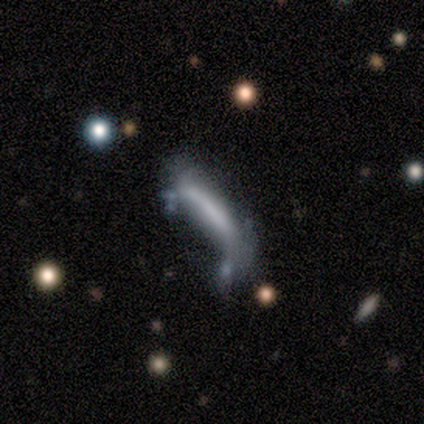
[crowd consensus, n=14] A smooth galaxy with no disk features (50%, tied with featured or disk) that is cigar-shaped (100%).

Vote fractions:
- Smooth or featured? smooth: 50% (tied) / featured or disk: 50% (tied) / star or artifact: 0%
- How rounded? cigar-shaped: 100% / round: 0% / in between: 0%
- Merging? minor disturbance: 57% / major disturbance: 21% / merger: 14% / none: 7%